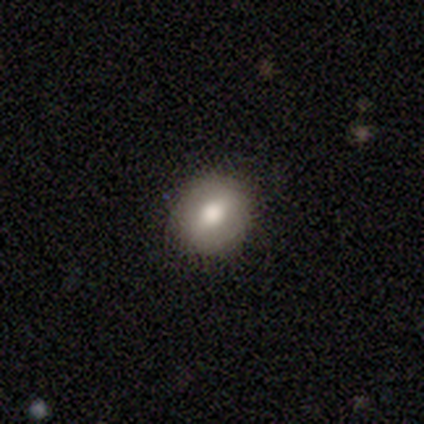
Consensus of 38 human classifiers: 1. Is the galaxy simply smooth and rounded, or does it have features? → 66% smooth, 26% featured or disk, 8% star or artifact.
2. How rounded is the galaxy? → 84% round, 16% in between, 0% cigar-shaped.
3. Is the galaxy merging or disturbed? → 97% none, 3% major disturbance, 0% minor disturbance, 0% merger.